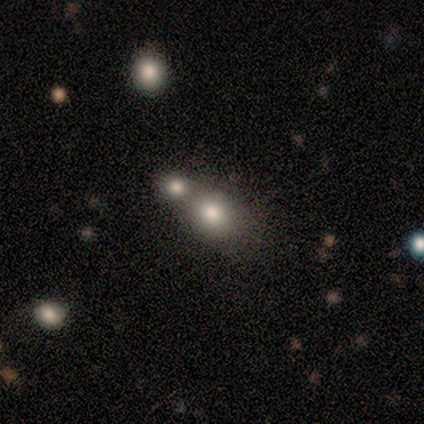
Volunteers were most divided on "how rounded" (2-way tie): round: 50%, in between: 50%, cigar-shaped: 0%. More confident: smooth or featured — smooth (80%); merging — merger (60%).